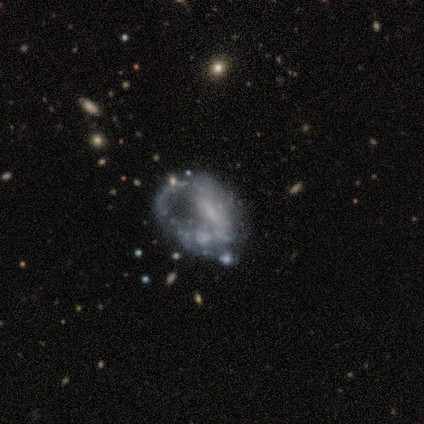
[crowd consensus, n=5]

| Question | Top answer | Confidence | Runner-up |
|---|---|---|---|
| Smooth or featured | featured or disk | 60% | smooth (20%) |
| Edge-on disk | no | 100% | — |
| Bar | no | 67% | weak (33%) |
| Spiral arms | no | 100% | — |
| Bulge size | none | 67% | small (33%) |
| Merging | minor disturbance | 50% | tied: major disturbance (50%) |